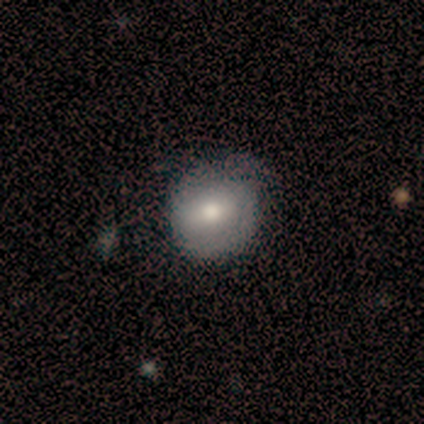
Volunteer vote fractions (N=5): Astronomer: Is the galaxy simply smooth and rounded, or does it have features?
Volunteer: smooth — 60%.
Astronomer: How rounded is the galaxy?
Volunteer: round — 100%.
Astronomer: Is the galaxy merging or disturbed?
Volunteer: none — 75%.